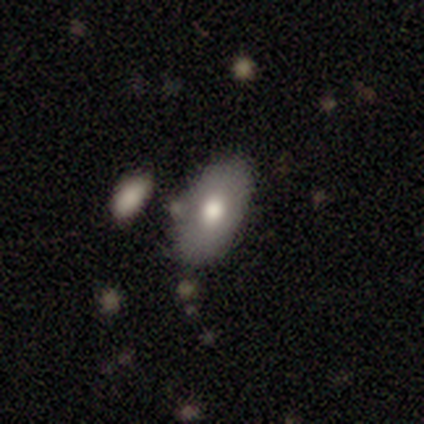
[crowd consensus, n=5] Smooth or featured? smooth (80%)
How rounded? in between (100%)
Merging? none (80%)